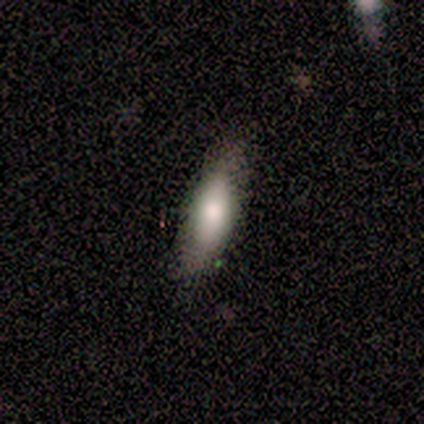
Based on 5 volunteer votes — Smooth or featured?
  - smooth: 40% * (tied)
  - featured or disk: 40% * (tied)
  - star or artifact: 20%
How rounded?
  - in between: 100% *
  - round: 0%
  - cigar-shaped: 0%
Merging?
  - none: 100% *
  - minor disturbance: 0%
  - major disturbance: 0%
  - merger: 0%